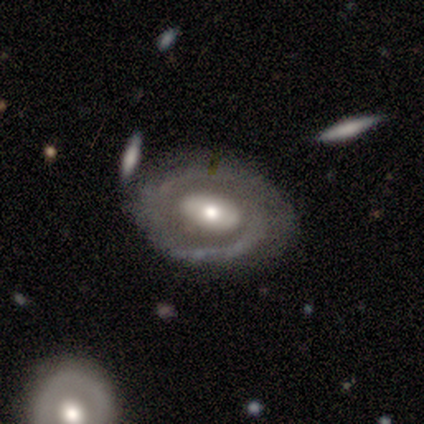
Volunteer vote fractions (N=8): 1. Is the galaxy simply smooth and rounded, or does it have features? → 62% featured or disk, 38% smooth, 0% star or artifact.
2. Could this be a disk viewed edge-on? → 100% no, 0% yes.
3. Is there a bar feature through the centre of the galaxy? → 40% weak (tied), 40% no (tied), 20% strong.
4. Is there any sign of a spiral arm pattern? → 80% yes, 20% no.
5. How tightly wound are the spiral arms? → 50% tight, 25% medium, 25% loose.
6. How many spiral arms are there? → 50% 2, 25% 1, 25% can't tell, 0% 3, 0% 4, 0% more than 4.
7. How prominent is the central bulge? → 80% moderate, 20% small, 0% dominant, 0% large, 0% none.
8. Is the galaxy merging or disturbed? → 88% none, 12% major disturbance, 0% minor disturbance, 0% merger.